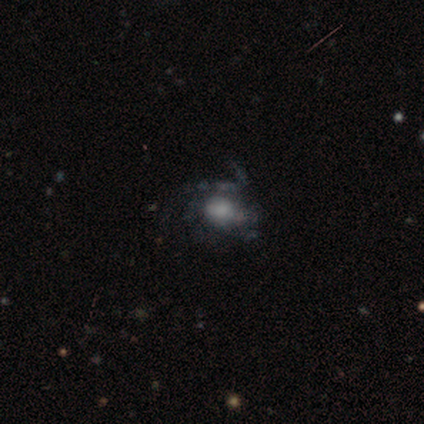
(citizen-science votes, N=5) smooth_or_featured: smooth (p=1.00)
how_rounded: round (p=0.60) [alt: in between p=0.40]
merging: major disturbance (p=0.60) [alt: none p=0.40]